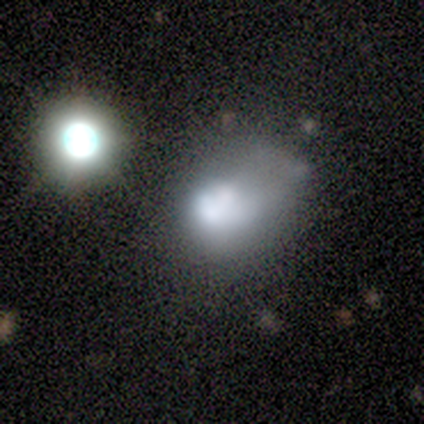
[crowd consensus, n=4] Q: Smooth or featured?
A: featured or disk (50%); runner-up: smooth (25%)
Q: Edge-on disk?
A: no (100%)
Q: Bar?
A: no (100%)
Q: Spiral arms?
A: no (100%)
Q: Bulge size?
A: large (100%)
Q: Merging?
A: none (33%); tied with: minor disturbance (33%); major disturbance (33%)